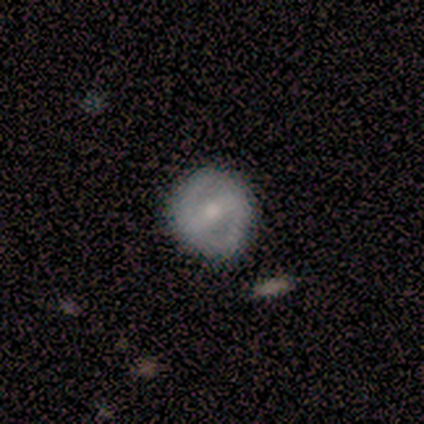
smooth_or_featured: featured or disk (p=0.60) [alt: smooth p=0.40]
disk_edge_on: no (p=1.00)
bar: strong (p=1.00)
has_spiral_arms: yes (p=0.67) [alt: no p=0.33]
spiral_winding: medium (p=1.00)
spiral_arm_count: 2 (p=1.00)
bulge_size: moderate (p=0.67) [alt: small p=0.33]
merging: none (p=0.80) [alt: minor disturbance p=0.20]